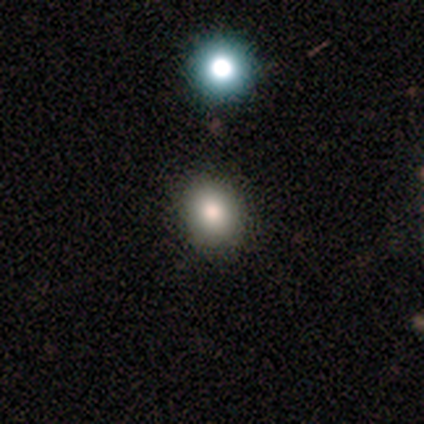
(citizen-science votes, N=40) Smooth or featured: smooth — 88% (star or artifact — 8%)
How rounded: round — 69% (in between — 31%)
Merging: none — 92% (minor disturbance — 3%)